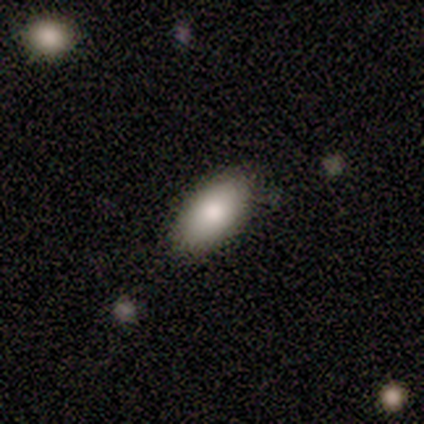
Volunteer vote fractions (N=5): Smooth or featured? smooth (80%)
How rounded? in between (100%)
Merging? none (60%)